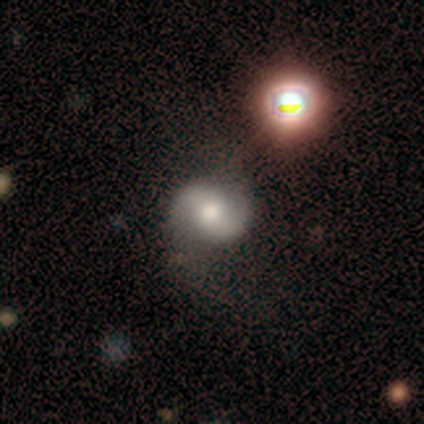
Q: Smooth or featured?
A: featured or disk (70%); runner-up: smooth (18%)
Q: Edge-on disk?
A: no (98%); runner-up: yes (2%)
Q: Bar?
A: no (50%); runner-up: strong (26%)
Q: Spiral arms?
A: yes (94%); runner-up: no (6%)
Q: Spiral winding?
A: loose (49%); runner-up: medium (37%)
Q: Spiral arm count?
A: 2 (96%); runner-up: can't tell (4%)
Q: Bulge size?
A: moderate (61%); runner-up: large (31%)
Q: Merging?
A: none (58%); runner-up: minor disturbance (19%)